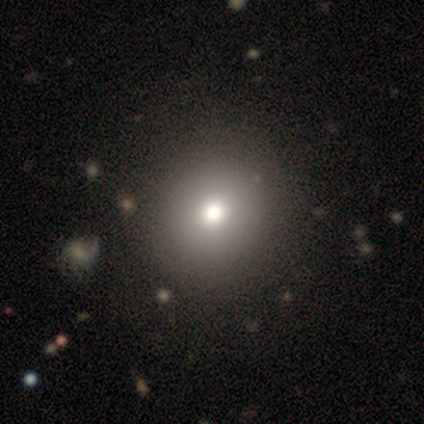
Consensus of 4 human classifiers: smooth-or-featured: smooth: 75% | featured or disk: 25% | star or artifact: 0%
  how-rounded: round: 100% | in between: 0% | cigar-shaped: 0%
  merging: none: 100% | minor disturbance: 0% | major disturbance: 0% | merger: 0%